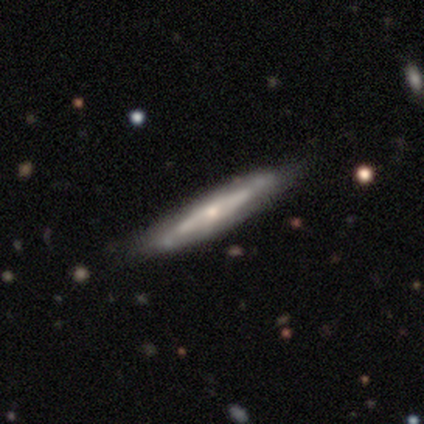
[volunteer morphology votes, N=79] type=featured or disk (66%); edge-on=yes (73%); edge-on bulge=rounded (53%); merging=none (39%).